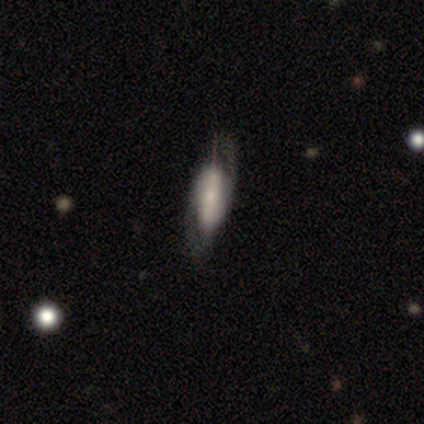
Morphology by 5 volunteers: A smooth galaxy with no disk features (40%, tied with featured or disk) that is in between round and cigar-shaped (50%, tied with cigar-shaped).

Vote fractions:
- Smooth or featured? smooth: 40% (tied) / featured or disk: 40% (tied) / star or artifact: 20%
- How rounded? in between: 50% (tied) / cigar-shaped: 50% (tied) / round: 0%
- Merging? none: 50% / minor disturbance: 25% / major disturbance: 25% / merger: 0%